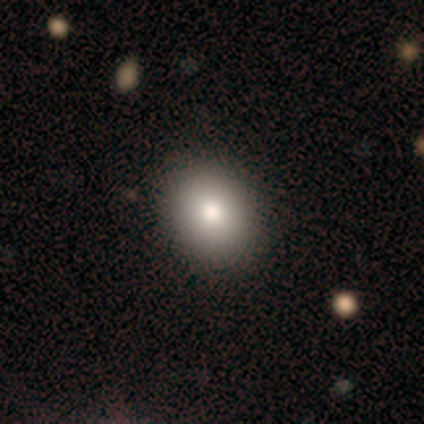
A smooth galaxy with no disk features (76%) that is round (52%).

Vote fractions:
- Smooth or featured? smooth: 76% / featured or disk: 17% / star or artifact: 7%
- How rounded? round: 52% / in between: 48% / cigar-shaped: 0%
- Merging? none: 93% / minor disturbance: 5% / major disturbance: 1% / merger: 1%